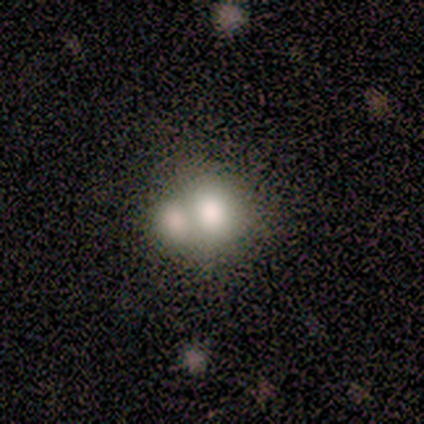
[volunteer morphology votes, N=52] Volunteers were most divided on "how rounded": round: 57%, in between: 43%, cigar-shaped: 0%. More confident: smooth or featured — smooth (67%); merging — merger (63%).